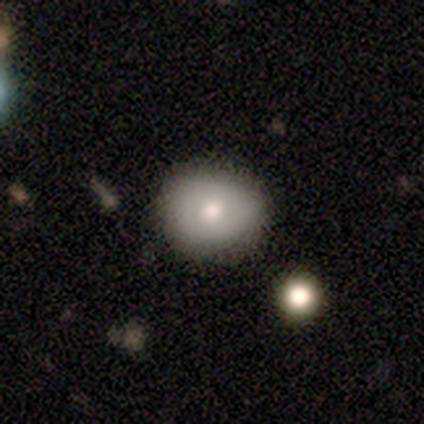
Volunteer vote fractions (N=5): smooth 80%, featured or disk 20%, star or artifact 0%. Down the decision tree: how rounded — in between (75%); merging — none (80%).